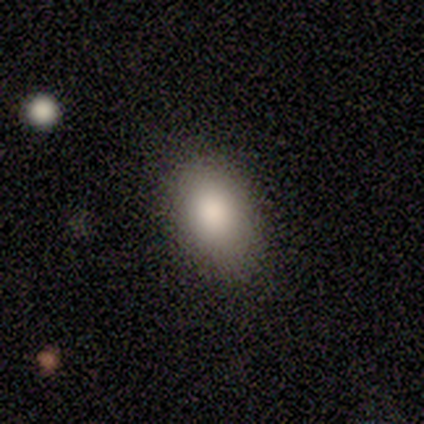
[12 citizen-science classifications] Smooth or featured?
  - smooth: 83% *
  - featured or disk: 17%
  - star or artifact: 0%
How rounded?
  - in between: 90% *
  - round: 10%
  - cigar-shaped: 0%
Merging?
  - none: 75% *
  - minor disturbance: 25%
  - major disturbance: 0%
  - merger: 0%